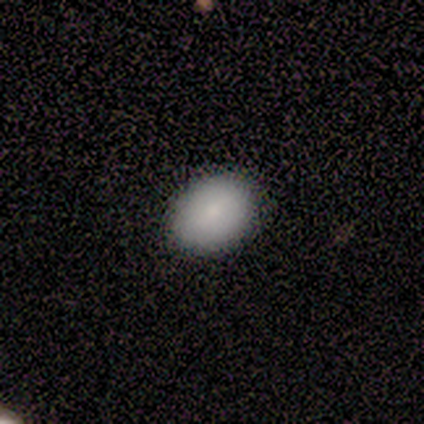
Overall: smooth (100%). How rounded: in between (60%; round 40%). Merging: none (100%).